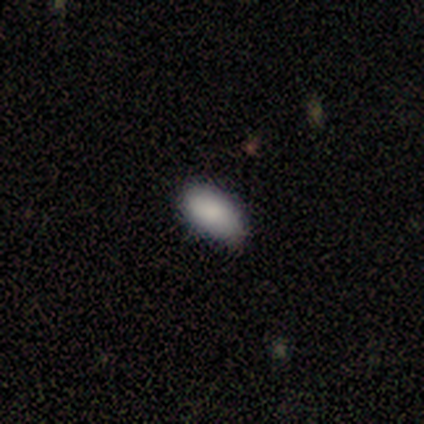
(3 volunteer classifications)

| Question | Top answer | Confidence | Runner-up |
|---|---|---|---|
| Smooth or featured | featured or disk | 67% | smooth (33%) |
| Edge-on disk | no | 100% | — |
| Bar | weak | 50% | tied: no (50%) |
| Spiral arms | yes | 50% | tied: no (50%) |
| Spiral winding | medium | 100% | — |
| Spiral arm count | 2 | 100% | — |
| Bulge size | small | 50% | tied: none (50%) |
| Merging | none | 67% | minor disturbance (33%) |